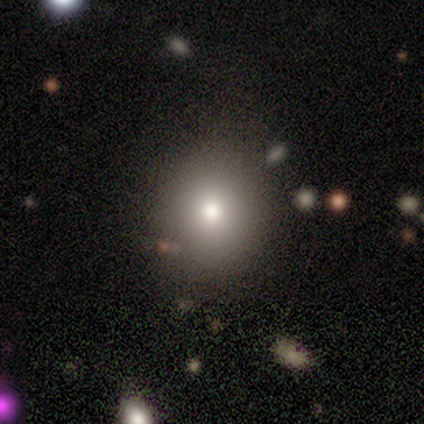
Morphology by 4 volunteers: Overall: smooth (100%). How rounded: round (100%). Merging: none (50%; minor disturbance 25%).